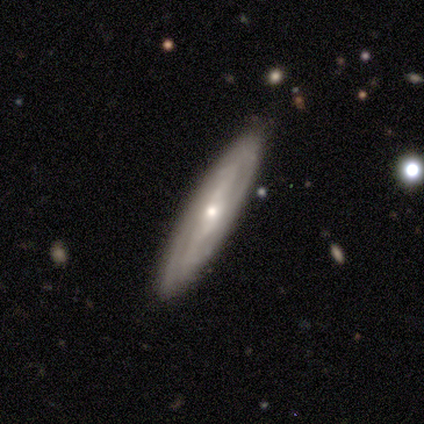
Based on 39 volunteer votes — This is likely a featured or disk galaxy (77%). It is likely not viewed edge-on (67%). Bar: possibly weak (45%, tied with no). Spiral arm pattern: clearly yes (90%). Spiral arm count: marginally 2 (44%). Spiral winding: possibly tight (56%). Central bulge: possibly small (55%). Merging: clearly none (92%).